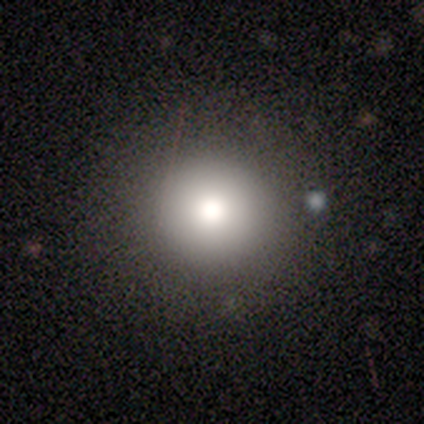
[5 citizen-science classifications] smooth 80%, star or artifact 20%, featured or disk 0%. Down the decision tree: how rounded — round (100%); merging — none (100%).